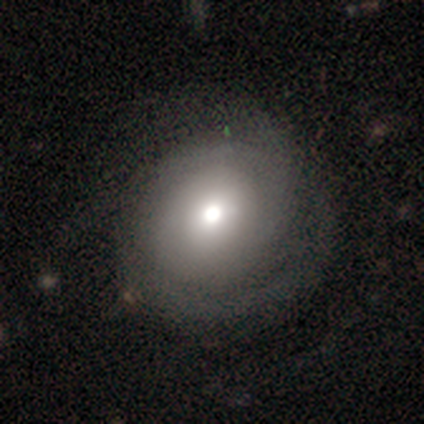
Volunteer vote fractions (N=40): Q: Smooth or featured?
A: featured or disk (52%); runner-up: smooth (45%)
Q: Edge-on disk?
A: no (100%)
Q: Bar?
A: no (71%); runner-up: weak (29%)
Q: Spiral arms?
A: yes (76%); runner-up: no (24%)
Q: Spiral winding?
A: tight (69%); runner-up: loose (19%)
Q: Spiral arm count?
A: 2 (44%); runner-up: can't tell (25%)
Q: Bulge size?
A: moderate (52%); runner-up: large (29%)
Q: Merging?
A: none (49%); runner-up: minor disturbance (23%)